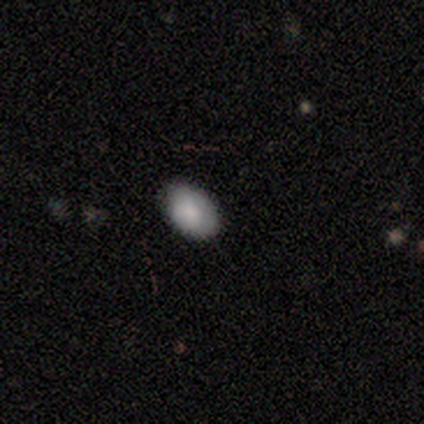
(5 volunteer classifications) Volunteers were most divided on "merging": none: 60%, minor disturbance: 40%, major disturbance: 0%, merger: 0%. More confident: smooth or featured — smooth (100%); how rounded — in between (100%).